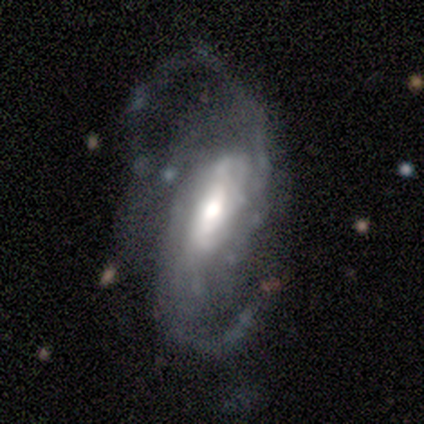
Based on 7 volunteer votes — A featured or disk galaxy (86%) with a strong bar (67%), 2 (83%) loose (67%) spiral arms (100%) and a large central bulge (33%, tied with moderate and small). Merging: none (50%).